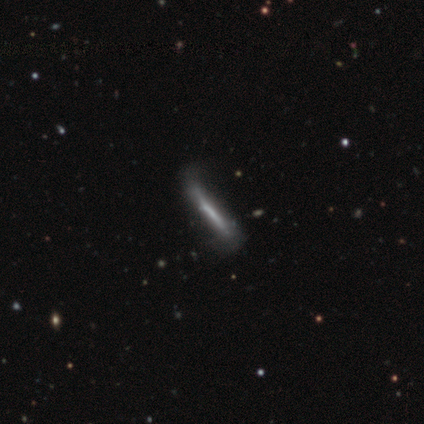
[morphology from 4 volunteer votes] A featured or disk galaxy (75%) viewed edge-on (100%) with no central bulge (100%). Merging: none (50%).